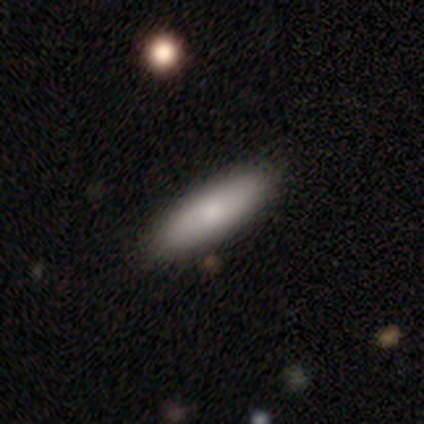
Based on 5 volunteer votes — Volunteers were most divided on "how rounded": in between: 75%, cigar-shaped: 25%, round: 0%. More confident: smooth or featured — smooth (80%); merging — none (75%).